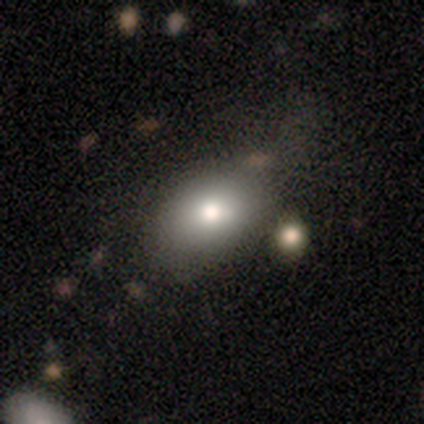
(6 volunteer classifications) smooth-or-featured: smooth: 67% | featured or disk: 17% | star or artifact: 17%
  how-rounded: in between: 100% | round: 0% | cigar-shaped: 0%
  merging: none: 40% (tied) | merger: 40% (tied) | major disturbance: 20% | minor disturbance: 0%